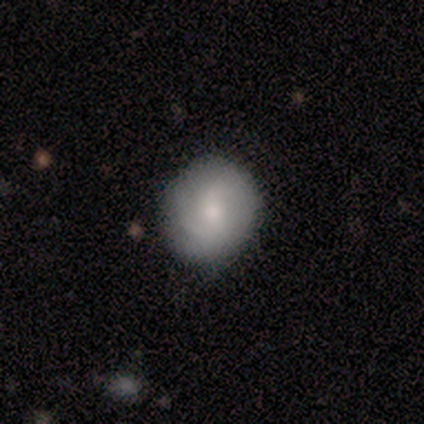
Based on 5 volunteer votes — Smooth or featured? 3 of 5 (60%) said featured or disk. Edge-on disk? 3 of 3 (100%) said no. Bar? 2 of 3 (67%) said no. Spiral arms? 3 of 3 (100%) said yes. Spiral winding? 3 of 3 (100%) said medium. Spiral arm count? 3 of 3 (100%) said 2. Bulge size? 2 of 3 (67%) said moderate. Merging? 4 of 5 (80%) said none.